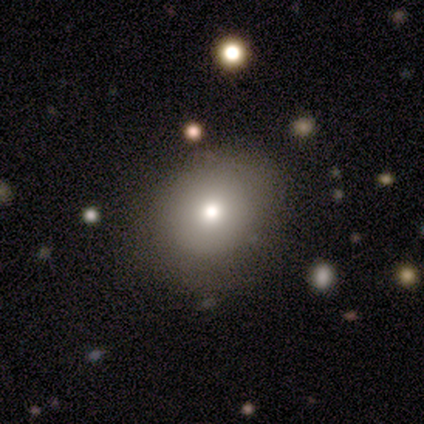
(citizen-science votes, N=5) A smooth galaxy with no disk features (40%, tied with star or artifact) that is round (100%).

Vote fractions:
- Smooth or featured? smooth: 40% (tied) / star or artifact: 40% (tied) / featured or disk: 20%
- How rounded? round: 100% / in between: 0% / cigar-shaped: 0%
- Merging? none: 67% / major disturbance: 33% / minor disturbance: 0% / merger: 0%